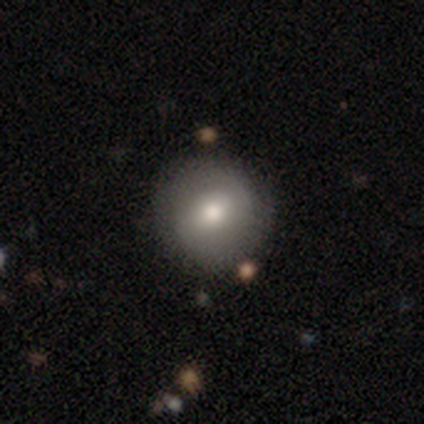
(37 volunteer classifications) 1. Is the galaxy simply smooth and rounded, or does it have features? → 57% smooth, 35% featured or disk, 8% star or artifact.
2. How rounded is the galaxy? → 95% round, 5% in between, 0% cigar-shaped.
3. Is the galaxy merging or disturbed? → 88% none, 9% minor disturbance, 3% major disturbance, 0% merger.